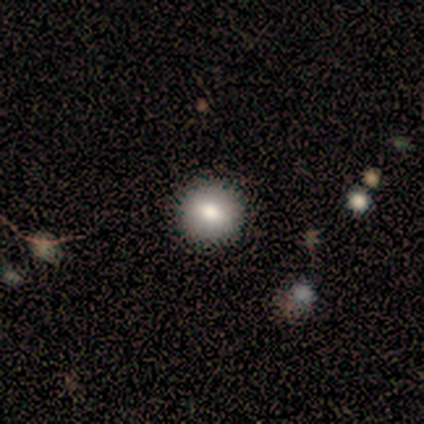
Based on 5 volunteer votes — Smooth or featured: smooth — 80% (featured or disk — 20%)
How rounded: round — 100%
Merging: none — 100%